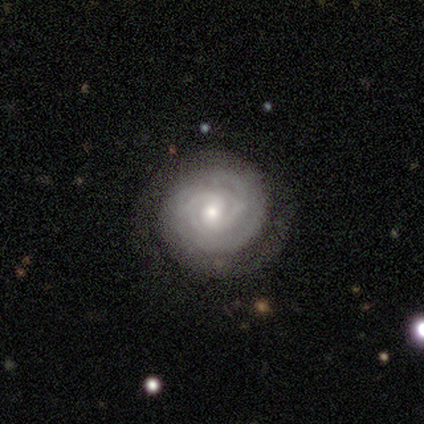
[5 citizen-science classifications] A featured or disk galaxy (80%) with no bar (75%), tight (100%) spiral arms (100%) and a small central bulge (100%). Merging: none (100%).